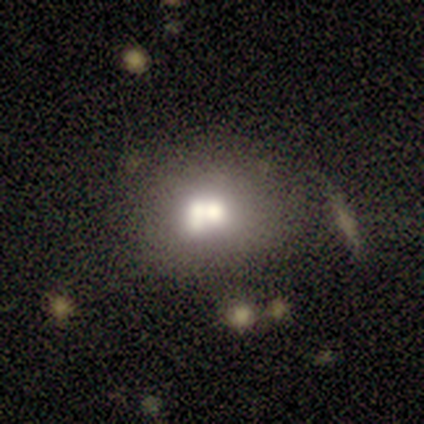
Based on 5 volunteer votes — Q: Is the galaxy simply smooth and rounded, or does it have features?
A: smooth — 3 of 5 (60%).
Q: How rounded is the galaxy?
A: round — 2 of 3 (67%).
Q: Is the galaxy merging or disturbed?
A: minor disturbance — 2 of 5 (40%).